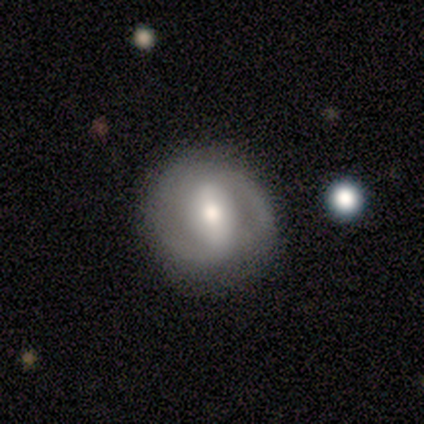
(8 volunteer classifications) This appears to be a featured or disk galaxy (88%) with a strong bar (75%), 2 (100%) medium (100%) spiral arms (75%) and a moderate central bulge (75%). Merging: none (62%).